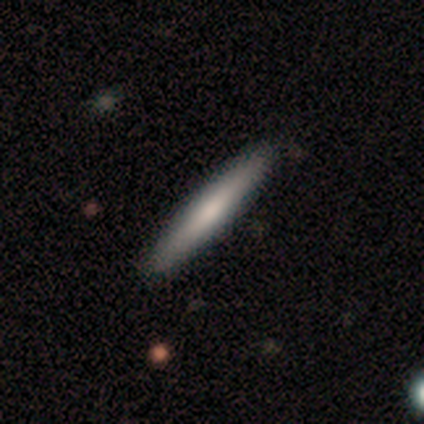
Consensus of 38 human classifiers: A smooth galaxy with no disk features (68%) that is cigar-shaped (100%). Merging: none (61%).